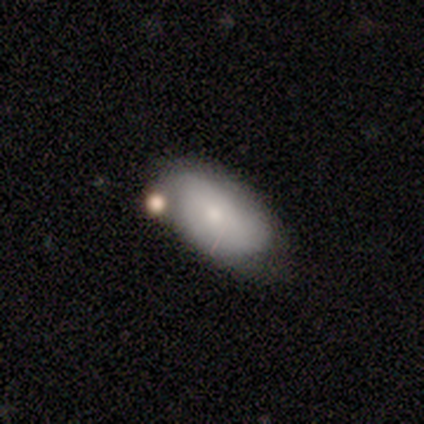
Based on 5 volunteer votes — Volunteers were most divided on "merging": none: 60%, merger: 40%, minor disturbance: 0%, major disturbance: 0%. More confident: smooth or featured — smooth (100%); how rounded — in between (100%).